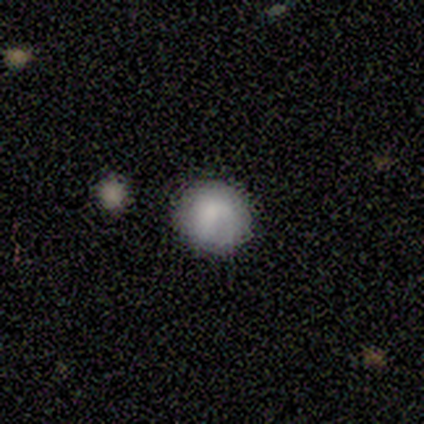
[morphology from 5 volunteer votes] Smooth or featured? smooth (100%)
How rounded? round (100%)
Merging? none (100%)